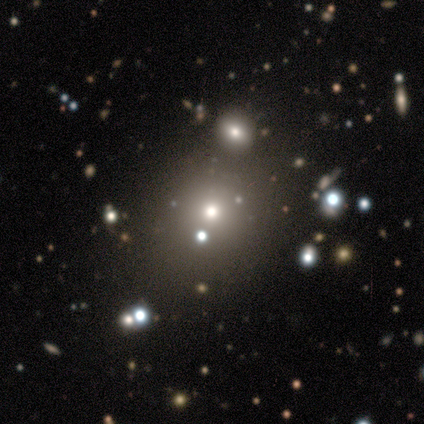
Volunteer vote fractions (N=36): Smooth or featured: smooth — 56% (star or artifact — 31%)
How rounded: round — 100%
Merging: none — 72% (merger — 12%)